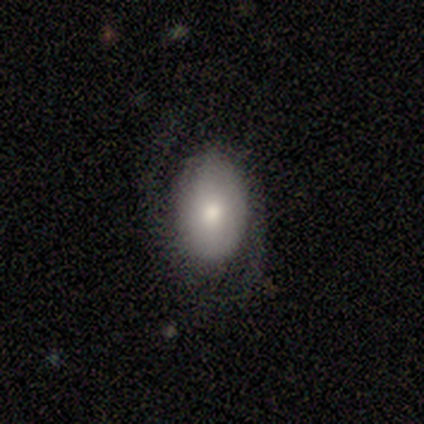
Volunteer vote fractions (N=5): Q: Smooth or featured?
A: featured or disk (60%); runner-up: smooth (40%)
Q: Edge-on disk?
A: no (100%)
Q: Bar?
A: no (67%); runner-up: weak (33%)
Q: Spiral arms?
A: yes (100%)
Q: Spiral winding?
A: loose (100%)
Q: Spiral arm count?
A: 2 (100%)
Q: Bulge size?
A: moderate (67%); runner-up: small (33%)
Q: Merging?
A: none (100%)